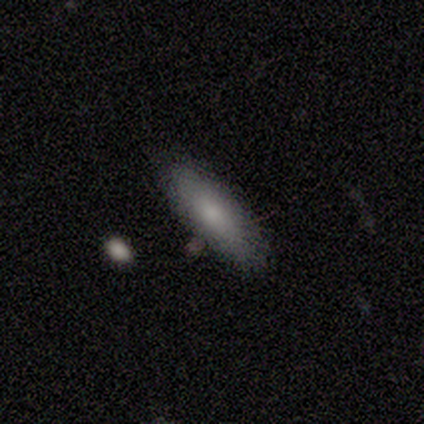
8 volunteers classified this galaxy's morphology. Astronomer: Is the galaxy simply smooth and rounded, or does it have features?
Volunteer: smooth — 75%.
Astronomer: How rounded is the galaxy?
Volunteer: in between — 67%.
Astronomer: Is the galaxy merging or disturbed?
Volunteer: none — 100%.